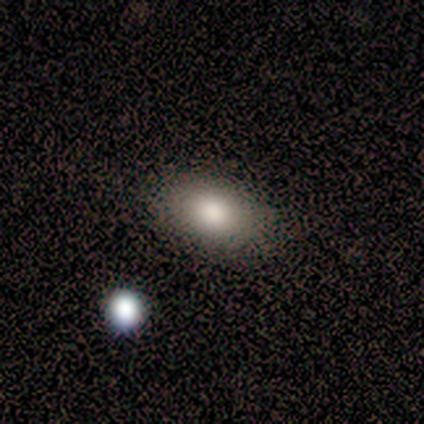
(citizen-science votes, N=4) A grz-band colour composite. It shows a smooth galaxy with no disk features (100%) that is in between round and cigar-shaped (100%). Merging: none (100%).